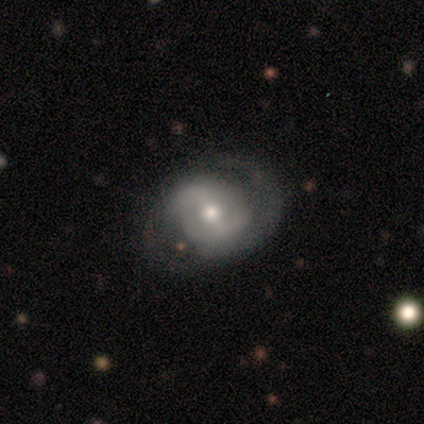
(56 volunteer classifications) Smooth or featured? featured or disk (84%)
Edge-on disk? no (96%)
Bar? strong (49%)
Spiral arms? yes (89%)
Spiral winding? medium (50%)
Spiral arm count? 2 (78%)
Bulge size? moderate (62%)
Merging? none (65%)